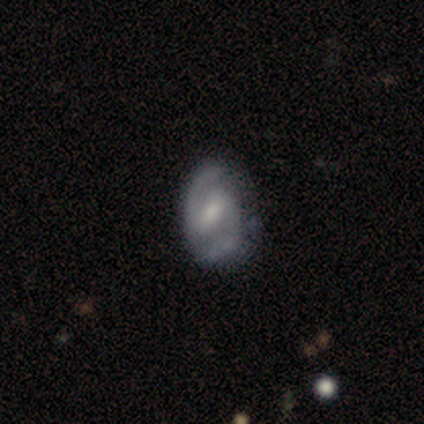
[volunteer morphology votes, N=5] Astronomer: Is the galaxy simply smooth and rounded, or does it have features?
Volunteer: featured or disk — 80%.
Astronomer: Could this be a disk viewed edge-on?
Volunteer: no — 100%.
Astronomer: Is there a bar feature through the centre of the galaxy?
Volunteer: no — 75%.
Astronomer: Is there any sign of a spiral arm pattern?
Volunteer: yes — 100%.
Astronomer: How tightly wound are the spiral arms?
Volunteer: tight — 50%, tied with medium at 50%.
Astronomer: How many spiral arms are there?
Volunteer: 2 — 100%.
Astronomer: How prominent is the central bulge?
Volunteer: moderate — 50%.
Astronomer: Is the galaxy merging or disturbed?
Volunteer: minor disturbance — 60% (runner-up: none, 40%).